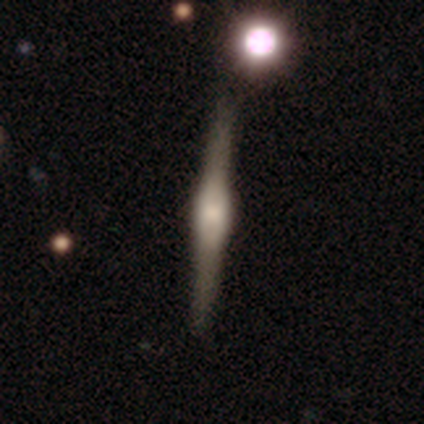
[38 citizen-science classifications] Smooth or featured? featured or disk (84%)
Edge-on disk? yes (97%)
Edge-on bulge? rounded (84%)
Merging? none (86%)